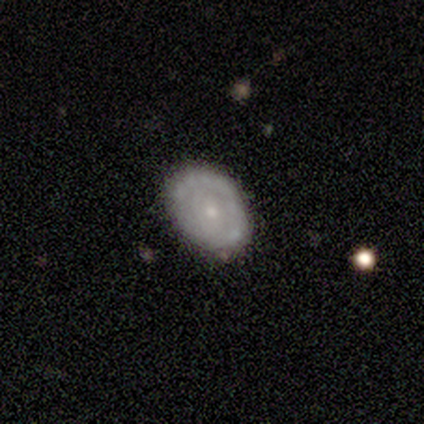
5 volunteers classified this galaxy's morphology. Smooth or featured? 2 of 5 (40%, tied with star or artifact) said smooth. How rounded? 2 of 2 (100%) said in between. Merging? 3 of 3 (100%) said none.